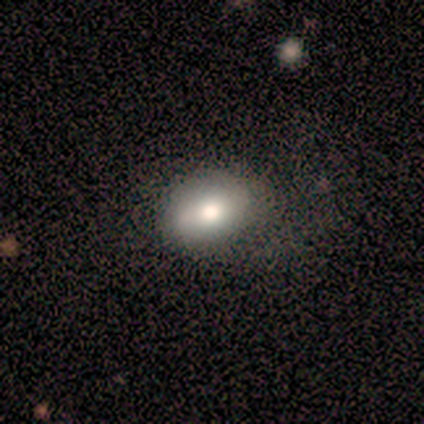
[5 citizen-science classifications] Smooth or featured? 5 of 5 (100%) said smooth. How rounded? 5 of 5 (100%) said in between. Merging? 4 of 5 (80%) said none.